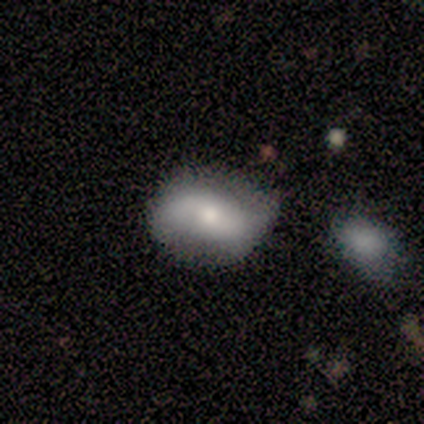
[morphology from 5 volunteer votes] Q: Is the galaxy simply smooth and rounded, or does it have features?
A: smooth — 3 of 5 (60%).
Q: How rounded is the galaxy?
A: round — 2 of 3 (67%).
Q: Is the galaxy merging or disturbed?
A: none — 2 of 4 (50%, tied with minor disturbance).